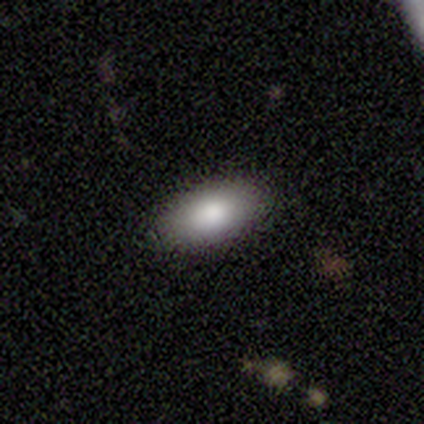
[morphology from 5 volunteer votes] A smooth galaxy with no disk features (100%) that is in between round and cigar-shaped (100%). Merging: none (80%).